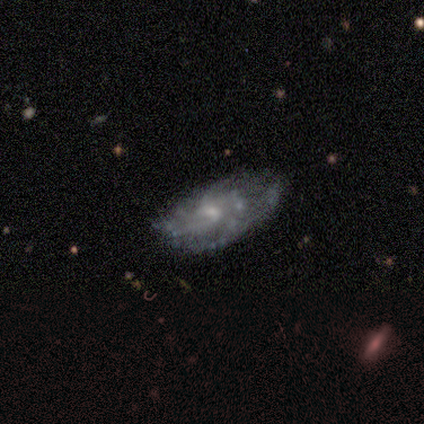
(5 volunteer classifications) Smooth or featured? featured or disk (80%)
Edge-on disk? no (100%)
Bar? no (75%)
Spiral arms? yes (100%)
Spiral winding? medium (100%)
Spiral arm count? can't tell (50%)
Bulge size? small (50%)
Merging? none (75%)